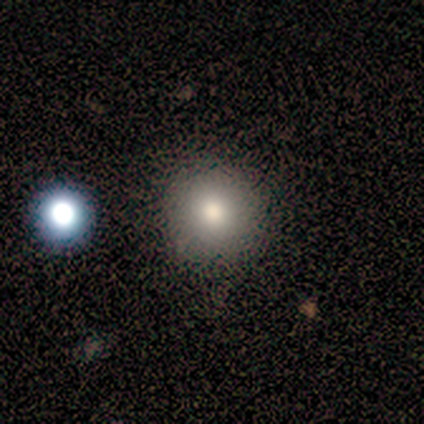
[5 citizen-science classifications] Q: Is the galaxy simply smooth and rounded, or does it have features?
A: smooth — 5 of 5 (100%).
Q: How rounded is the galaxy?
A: round — 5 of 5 (100%).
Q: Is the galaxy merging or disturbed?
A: none — 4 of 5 (80%).